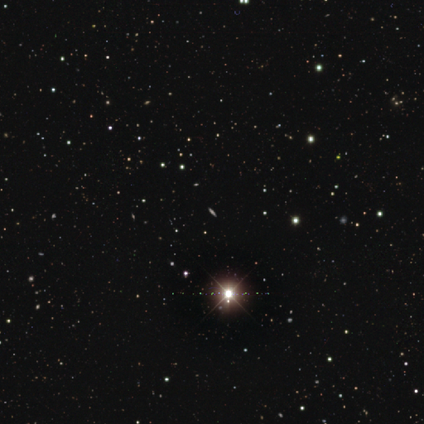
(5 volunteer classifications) smooth_or_featured: featured or disk (p=0.40) [tied with: star or artifact p=0.40]
disk_edge_on: yes (p=1.00)
edge_on_bulge: none (p=0.50) [tied with: rounded p=0.50]
merging: none (p=1.00)